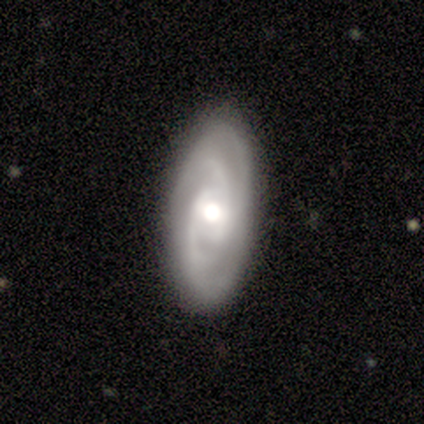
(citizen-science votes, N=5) A featured or disk galaxy (100%) with no bar (67%), 2 (67%) tight (67%) spiral arms (100%) and a moderate central bulge (100%). Merging: none (80%).